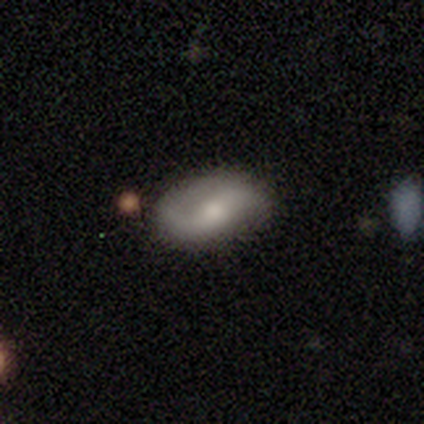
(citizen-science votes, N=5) Overall: featured or disk (80%). Edge-on disk: no (100%). Bar: weak (50%; strong 25%). Spiral arms: yes (100%). Spiral arm count: 2 (100%). Spiral winding: medium (50%, tied with loose). Bulge size: moderate (50%, tied with small). Merging: none (100%).